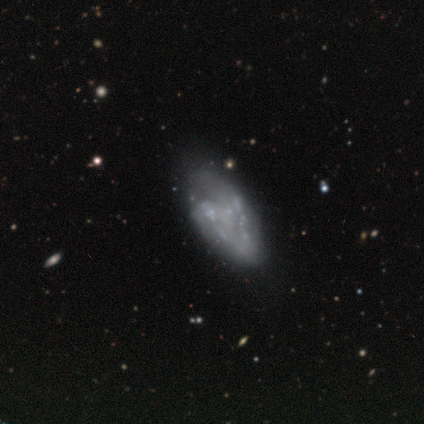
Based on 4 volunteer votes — This is clearly a featured or disk galaxy (100%). It is clearly not viewed edge-on (100%). Bar: likely no (75%). Spiral arm pattern: likely yes (75%). Spiral arm count: likely 2 (67%). Spiral winding: likely tight (67%). Central bulge: likely none (75%). Merging: possibly minor disturbance (50%).